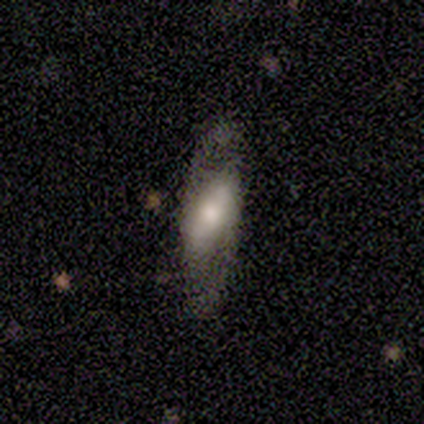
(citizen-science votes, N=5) This appears to be a featured or disk galaxy (100%) with a strong bar (60%), 2 (100%) medium (60%) spiral arms (100%) and a moderate central bulge (100%). Merging: none (80%).